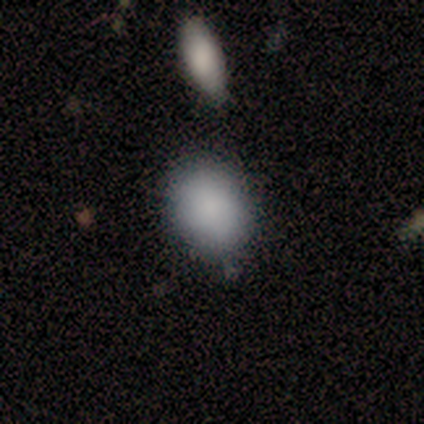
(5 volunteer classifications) Smooth or featured? smooth (100%)
How rounded? in between (60%)
Merging? none (100%)